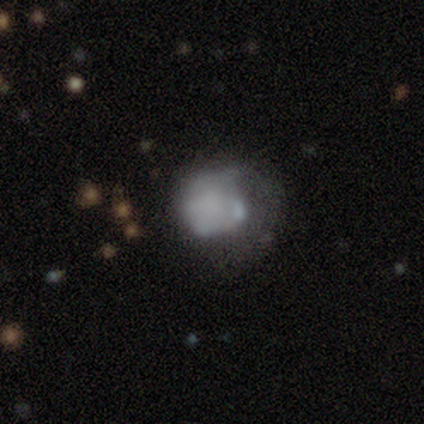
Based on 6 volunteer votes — smooth 50%, featured or disk 33%, star or artifact 17%. Down the decision tree: how rounded — round (67%); merging — major disturbance (40%).